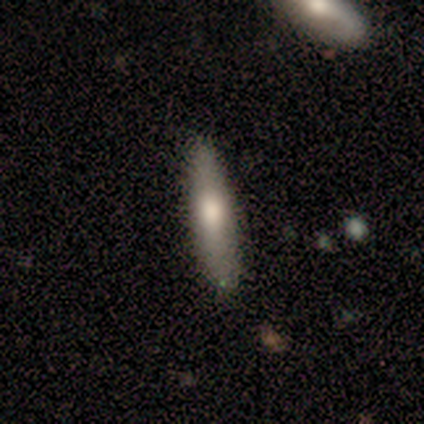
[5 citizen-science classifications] Morphology: type=smooth (60%); roundness=cigar-shaped (67%); merging=none (80%).